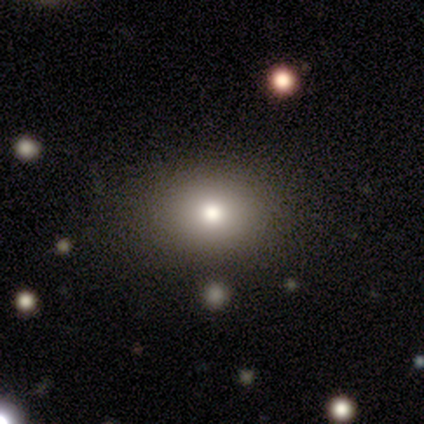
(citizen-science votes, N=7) Morphology: type=smooth (86%); roundness=in between (100%); merging=none (100%).